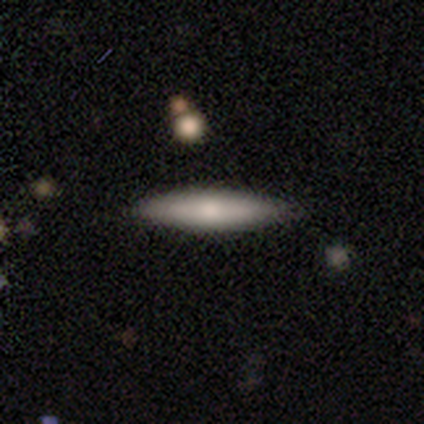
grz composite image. It shows a smooth galaxy with no disk features (60%) that is cigar-shaped (100%). Merging: none (60%).